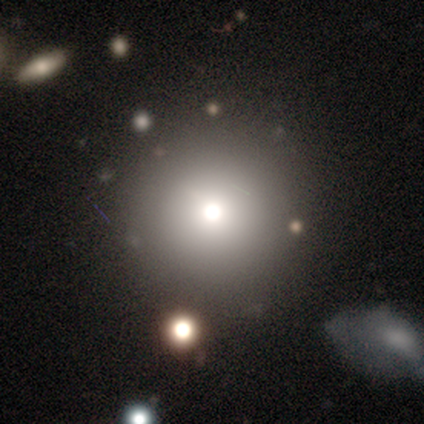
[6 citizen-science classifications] A smooth galaxy with no disk features (83%) that is round (100%). Merging: none (100%).